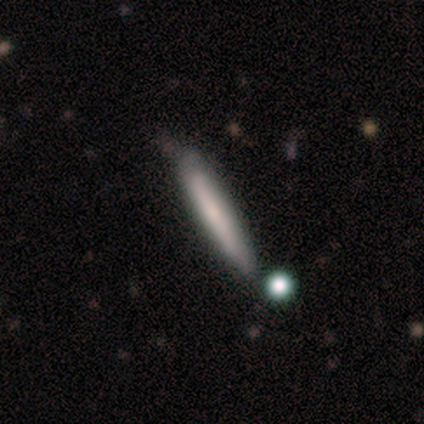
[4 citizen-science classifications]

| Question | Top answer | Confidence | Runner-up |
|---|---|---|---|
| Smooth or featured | smooth | 75% | featured or disk (25%) |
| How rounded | cigar-shaped | 100% | — |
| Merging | none | 100% | — |